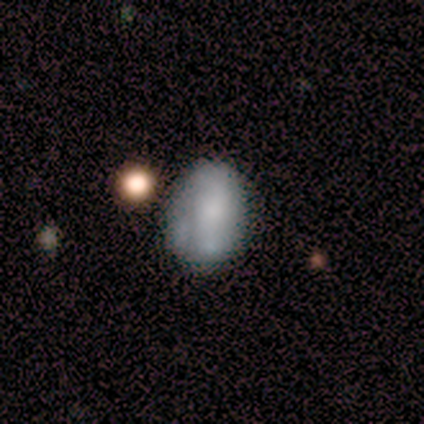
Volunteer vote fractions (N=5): A smooth galaxy with no disk features (60%) that is in between round and cigar-shaped (100%). Merging: none (100%).